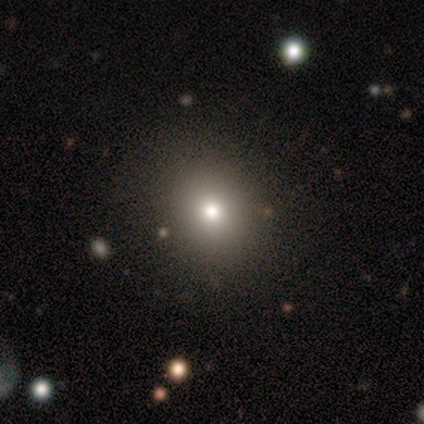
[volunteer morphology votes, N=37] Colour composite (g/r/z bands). It shows a smooth galaxy with no disk features (78%) that is round (86%). Merging: none (90%).